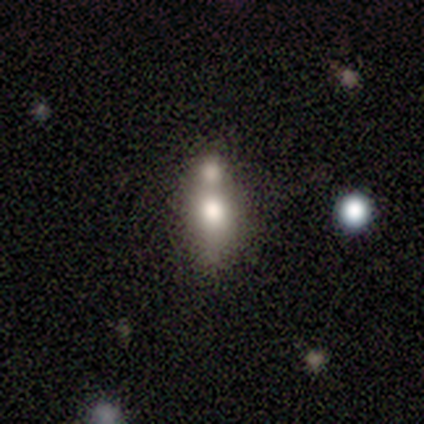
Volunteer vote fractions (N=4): This appears to be a smooth galaxy with no disk features (75%) that is in between round and cigar-shaped (67%). Merging: merger (67%).